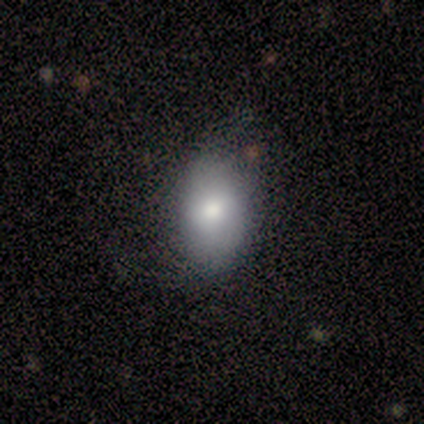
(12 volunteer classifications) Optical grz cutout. It shows a smooth galaxy with no disk features (92%) that is in between round and cigar-shaped (91%). Merging: none (75%).